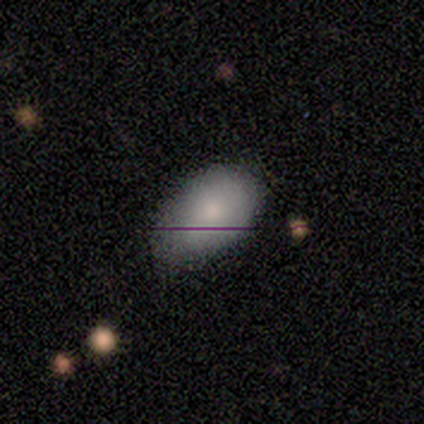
smooth_or_featured: smooth (p=0.60) [alt: featured or disk p=0.20]
how_rounded: in between (p=1.00)
merging: none (p=0.50) [tied with: minor disturbance p=0.50]